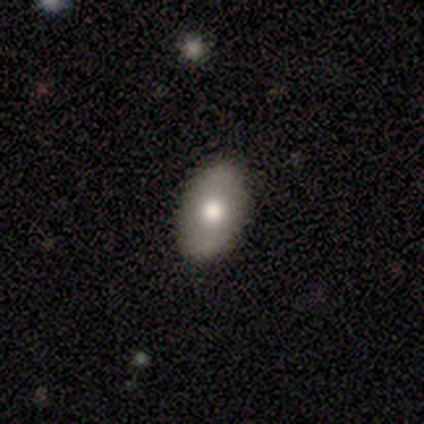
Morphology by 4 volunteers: A featured or disk galaxy (50%) viewed edge-on (50%, tied with no) with a rounded central bulge (100%). Merging: none (100%).